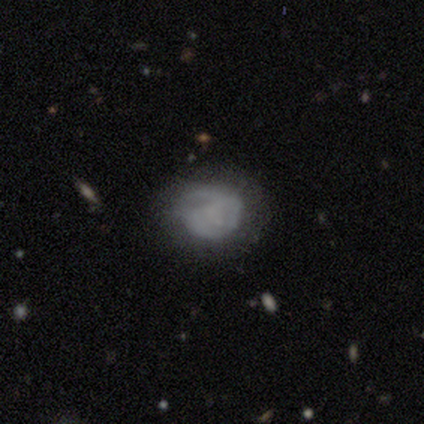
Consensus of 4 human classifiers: Q: Smooth or featured?
A: smooth (75%); runner-up: featured or disk (25%)
Q: How rounded?
A: round (100%)
Q: Merging?
A: none (50%); tied with: minor disturbance (50%)